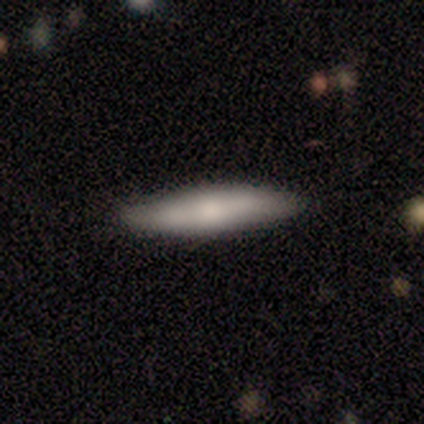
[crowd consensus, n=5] Morphology: type=smooth (80%); roundness=cigar-shaped (100%); merging=none (100%).